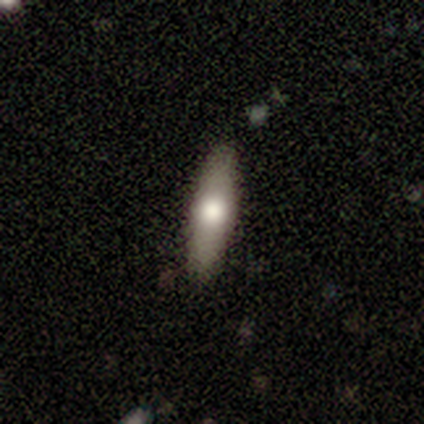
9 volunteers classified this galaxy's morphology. Overall: featured or disk (67%; smooth 33%). Edge-on disk: yes (67%; no 33%). Edge-on bulge: rounded (100%). Merging: none (78%).